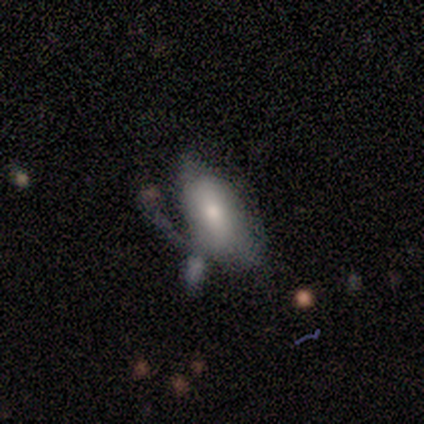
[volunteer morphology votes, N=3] Overall: smooth (67%; featured or disk 33%). How rounded: in between (100%). Merging: none (33%, tied with minor disturbance and major disturbance).